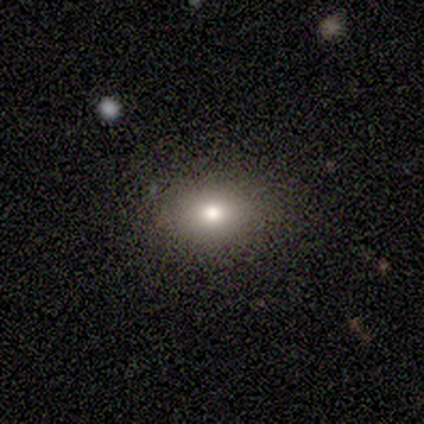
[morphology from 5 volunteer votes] Volunteers were most divided on "how rounded": in between: 60%, round: 40%, cigar-shaped: 0%. More confident: smooth or featured — smooth (100%); merging — none (80%).